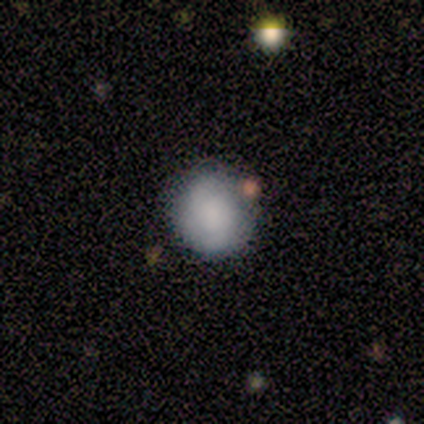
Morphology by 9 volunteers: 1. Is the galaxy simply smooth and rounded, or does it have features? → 56% smooth, 33% featured or disk, 11% star or artifact.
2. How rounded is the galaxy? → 100% round, 0% in between, 0% cigar-shaped.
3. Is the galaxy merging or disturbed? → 75% none, 25% minor disturbance, 0% major disturbance, 0% merger.